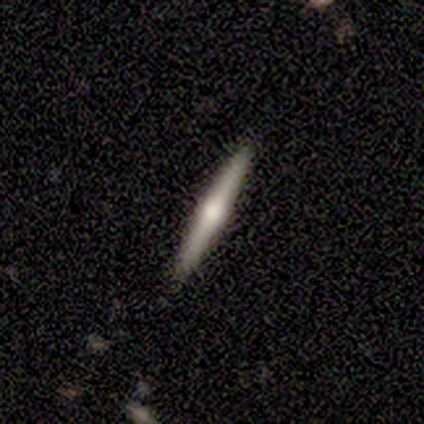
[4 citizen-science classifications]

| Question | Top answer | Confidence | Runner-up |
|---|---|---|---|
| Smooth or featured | featured or disk | 50% | smooth (25%) |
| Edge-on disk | yes | 100% | — |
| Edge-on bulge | rounded | 100% | — |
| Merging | none | 100% | — |